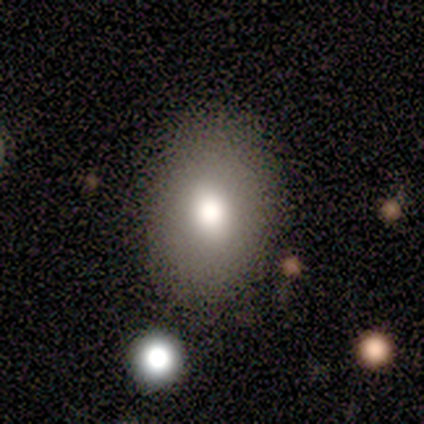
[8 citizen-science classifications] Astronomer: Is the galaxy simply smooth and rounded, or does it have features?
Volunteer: smooth — 75%.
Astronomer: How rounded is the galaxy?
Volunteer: in between — 100%.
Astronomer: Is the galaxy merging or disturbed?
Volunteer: none — 62%.